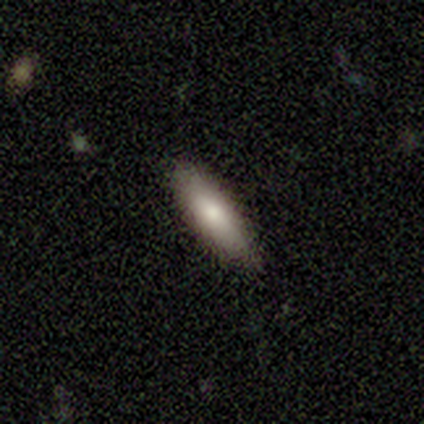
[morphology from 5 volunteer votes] Smooth or featured? smooth (80%)
How rounded? in between (50%, tied with cigar-shaped)
Merging? none (100%)